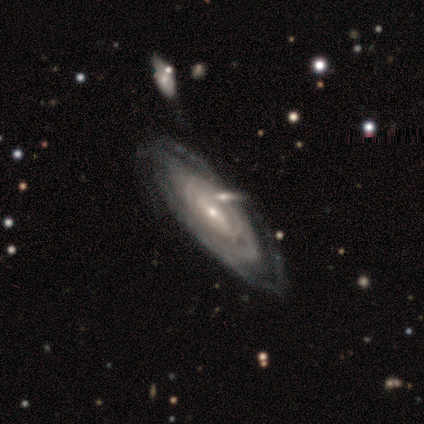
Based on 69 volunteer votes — Volunteers were most divided on "bar": no: 42%, weak: 40%, strong: 19%. Remaining: spiral arms — yes (92%); edge-on disk — no (86%); smooth or featured — featured or disk (81%); bulge size — small (77%); spiral arm count — can't tell (68%); spiral winding — tight (66%); merging — none (37%).